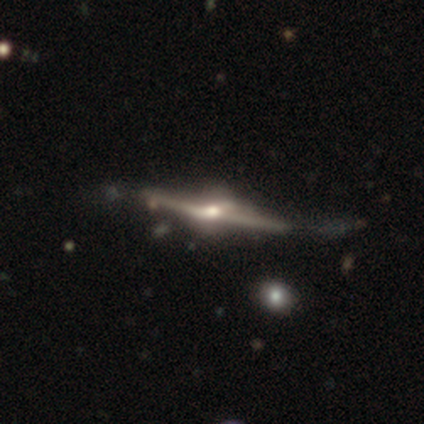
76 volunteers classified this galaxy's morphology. This appears to be a featured or disk galaxy (89%) viewed edge-on (99%) with a rounded central bulge (97%). Merging: none (29%).